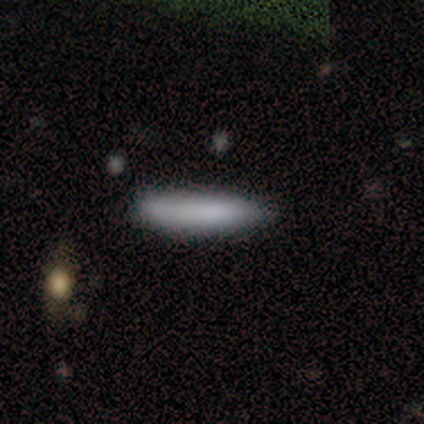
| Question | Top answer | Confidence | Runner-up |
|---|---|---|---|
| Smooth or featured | smooth | 80% | featured or disk (20%) |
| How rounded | cigar-shaped | 100% | — |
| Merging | none | 100% | — |